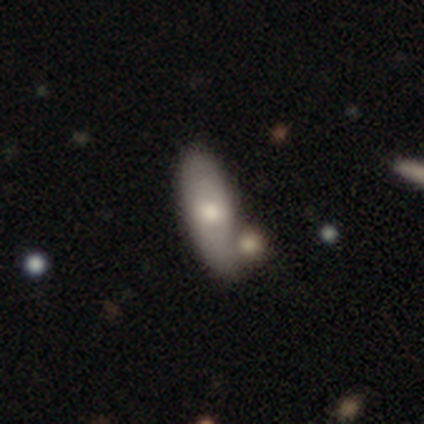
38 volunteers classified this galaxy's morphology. A smooth galaxy with no disk features (84%) that is in between round and cigar-shaped (72%). Merging: none (55%).